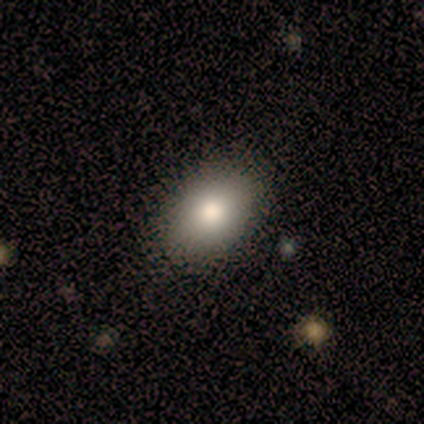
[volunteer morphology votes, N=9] Smooth or featured? 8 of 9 (89%) said smooth. How rounded? 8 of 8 (100%) said in between. Merging? 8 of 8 (100%) said none.